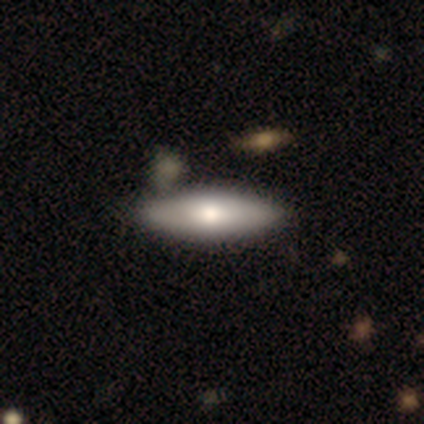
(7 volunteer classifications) Smooth or featured? 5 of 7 (71%) said featured or disk. Edge-on disk? 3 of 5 (60%) said yes. Edge-on bulge? 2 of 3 (67%) said none. Merging? 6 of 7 (86%) said none.